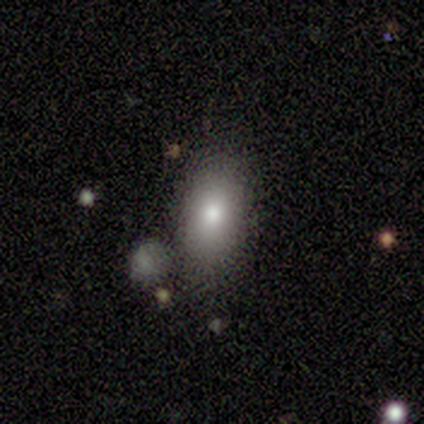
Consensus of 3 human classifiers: Smooth or featured? smooth (100%)
How rounded? in between (100%)
Merging? none (100%)